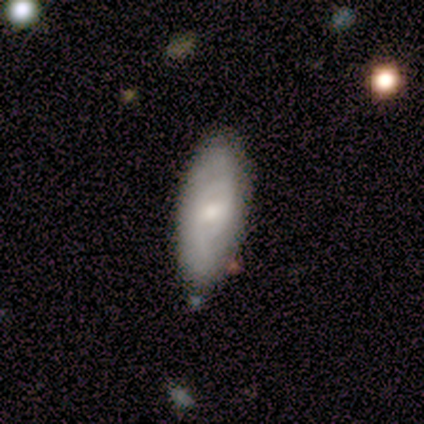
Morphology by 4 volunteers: A smooth galaxy with no disk features (100%) that is in between round and cigar-shaped (100%).

Vote fractions:
- Smooth or featured? smooth: 100% / featured or disk: 0% / star or artifact: 0%
- How rounded? in between: 100% / round: 0% / cigar-shaped: 0%
- Merging? none: 100% / minor disturbance: 0% / major disturbance: 0% / merger: 0%